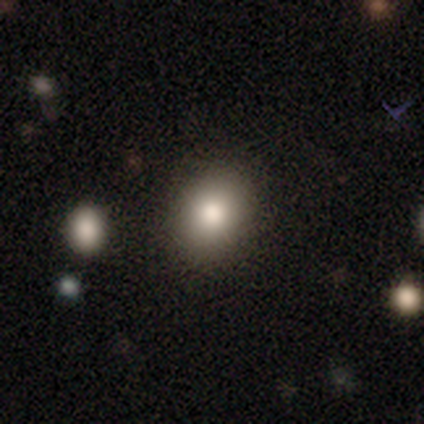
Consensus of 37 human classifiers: This appears to be a smooth galaxy with no disk features (78%) that is in between round and cigar-shaped (52%). Merging: none (97%).